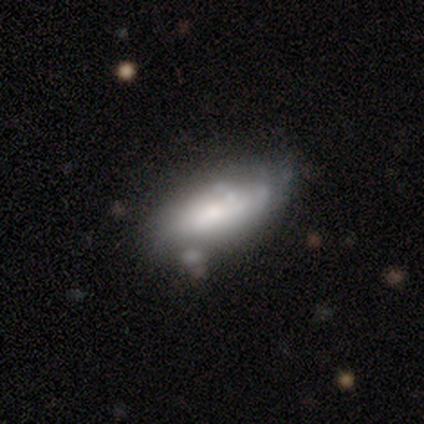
smooth 66%, featured or disk 32%, star or artifact 2%. Down the decision tree: how rounded — in between (83%); merging — none (60%).